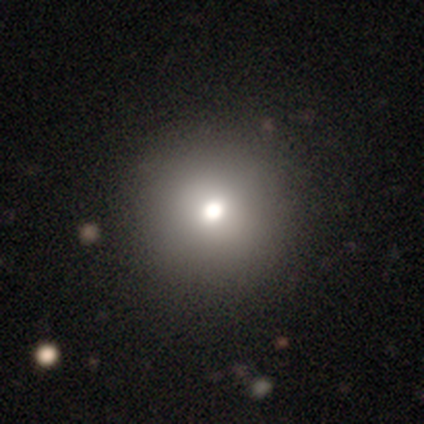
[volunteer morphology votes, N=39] This appears to be a smooth galaxy with no disk features (82%) that is round (84%). Merging: none (57%).